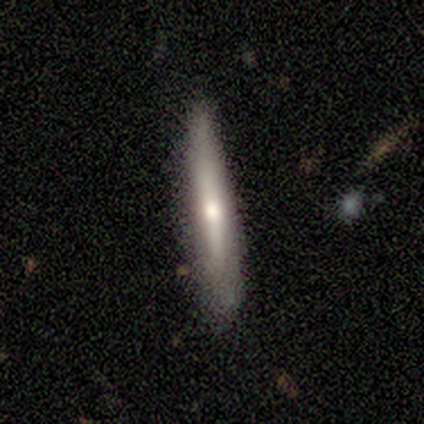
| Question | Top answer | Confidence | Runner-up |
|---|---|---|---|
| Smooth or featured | smooth | 50% | featured or disk (33%) |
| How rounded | cigar-shaped | 100% | — |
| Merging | none | 80% | minor disturbance (20%) |